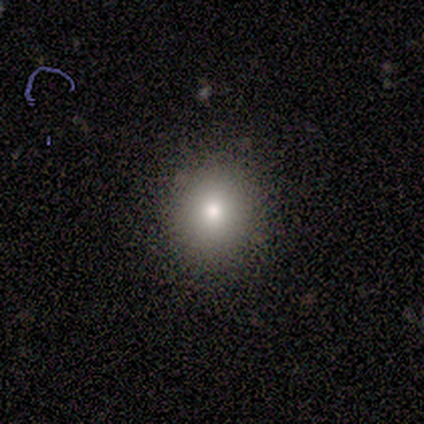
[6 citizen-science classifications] Smooth or featured: smooth — 100%
How rounded: round — 100%
Merging: none — 100%